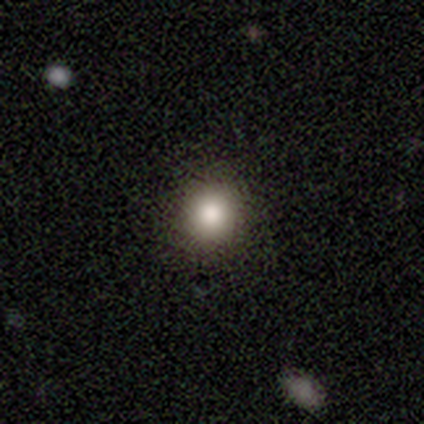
smooth-or-featured: smooth: 60% | featured or disk: 20% | star or artifact: 20%
  how-rounded: round: 100% | in between: 0% | cigar-shaped: 0%
  merging: none: 100% | minor disturbance: 0% | major disturbance: 0% | merger: 0%